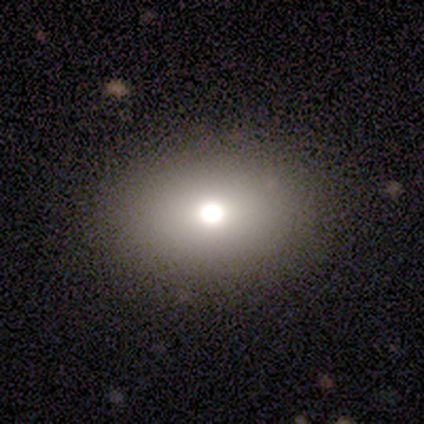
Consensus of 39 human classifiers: Q: Smooth or featured?
A: smooth (72%); runner-up: star or artifact (21%)
Q: How rounded?
A: in between (64%); runner-up: round (36%)
Q: Merging?
A: none (90%); runner-up: merger (6%)